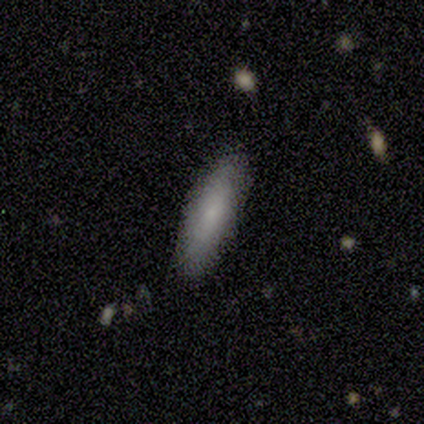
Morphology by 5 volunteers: Volunteers were most divided on "smooth or featured": smooth: 60%, featured or disk: 40%, star or artifact: 0%. More confident: how rounded — cigar-shaped (100%); merging — none (100%).